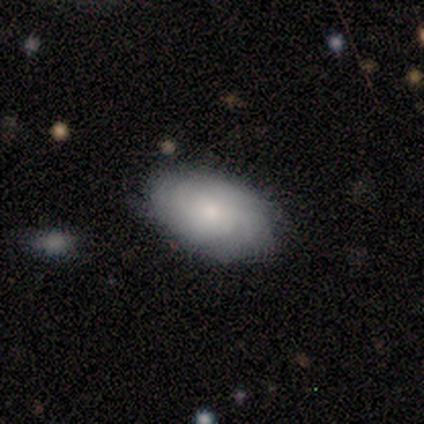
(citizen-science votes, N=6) Smooth or featured: featured or disk — 83% (smooth — 17%)
Edge-on disk: no — 100%
Bar: no — 80% (weak — 20%)
Spiral arms: yes — 60% (no — 40%)
Spiral winding: medium — 67% (tight — 33%)
Spiral arm count: can't tell — 100%
Bulge size: small — 60% (moderate — 40%)
Merging: none — 83% (minor disturbance — 17%)